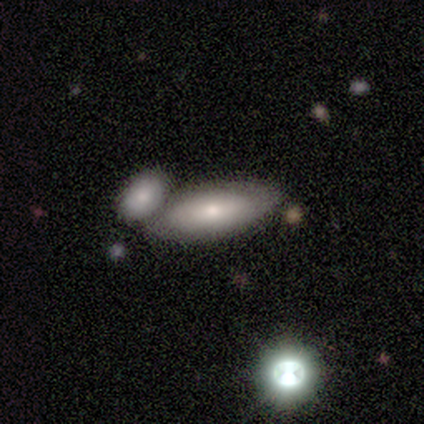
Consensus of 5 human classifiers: Morphology: type=smooth (60%); roundness=in between (100%); merging=none (60%).